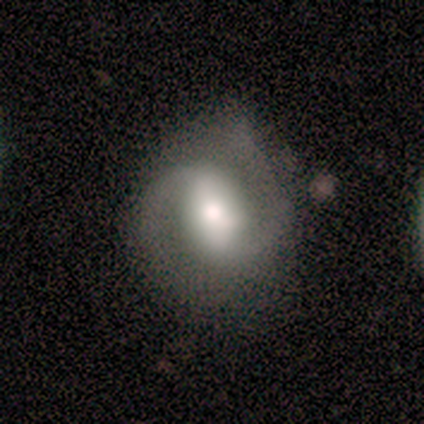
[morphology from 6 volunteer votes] featured or disk 100%, smooth 0%, star or artifact 0%. Down the decision tree: edge-on disk — no (100%); bar — weak (67%); spiral arms — yes (100%); spiral arm count — 2 (100%); spiral winding — medium (67%); bulge size — moderate (67%); merging — none (83%).